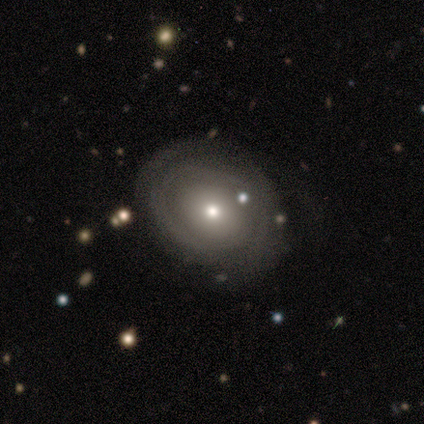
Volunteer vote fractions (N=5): Volunteers were most divided on "spiral arms" (2-way tie): yes: 50%, no: 50%; "spiral winding" (2-way tie): tight: 50%, medium: 50%, loose: 0%; "spiral arm count" (2-way tie): 1: 50%, can't tell: 50%, 2: 0%, 3: 0%, 4: 0%, more than 4: 0%. Remaining: edge-on disk — no (100%); smooth or featured — featured or disk (80%); bar — no (75%); bulge size — moderate (75%); merging — minor disturbance (40%).